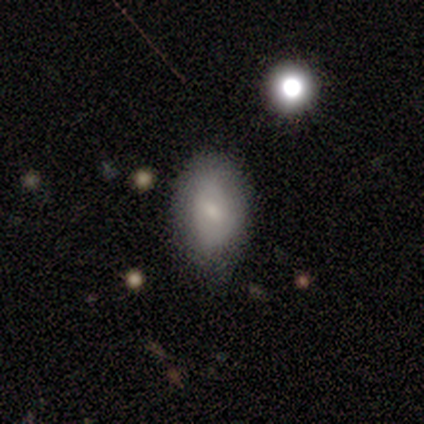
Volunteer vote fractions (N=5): Morphology: type=featured or disk (60%); edge-on=no (100%); bar=weak (67%); spiral arms=no (100%); bulge=small (100%); merging=none (80%).